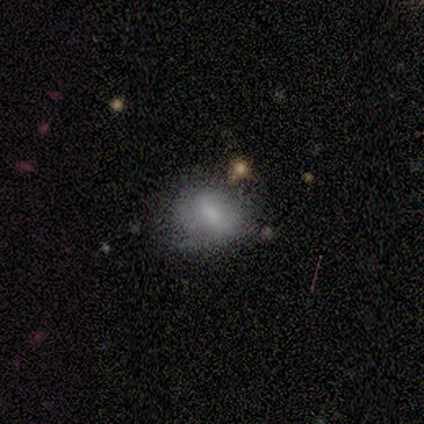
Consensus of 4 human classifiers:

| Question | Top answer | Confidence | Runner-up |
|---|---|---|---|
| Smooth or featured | featured or disk | 75% | star or artifact (25%) |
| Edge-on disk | no | 67% | yes (33%) |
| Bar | weak | 50% | tied: no (50%) |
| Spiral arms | no | 100% | — |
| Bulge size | small | 100% | — |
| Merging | none | 67% | merger (33%) |